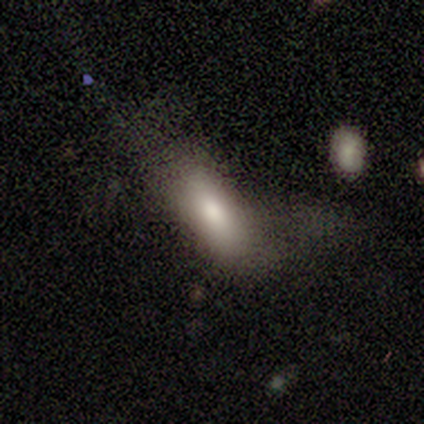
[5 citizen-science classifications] This is clearly a smooth galaxy (100%). How rounded: likely in between (60%). Merging: clearly major disturbance (80%).